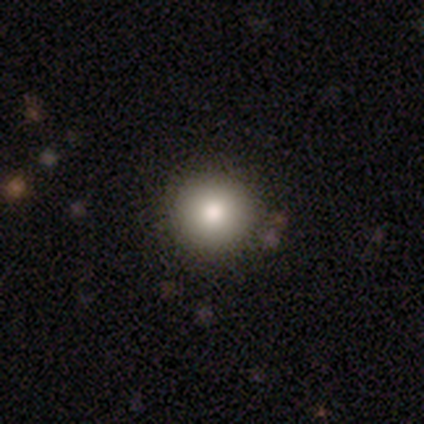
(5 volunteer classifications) Smooth or featured?
  - smooth: 100% *
  - featured or disk: 0%
  - star or artifact: 0%
How rounded?
  - round: 80% *
  - in between: 20%
  - cigar-shaped: 0%
Merging?
  - none: 80% *
  - minor disturbance: 20%
  - major disturbance: 0%
  - merger: 0%